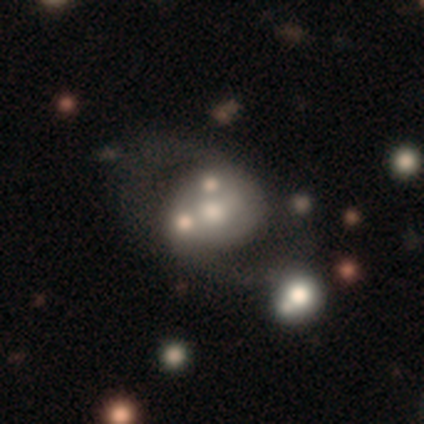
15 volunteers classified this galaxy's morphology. Smooth or featured: featured or disk — 80% (smooth — 13%)
Edge-on disk: no — 100%
Bar: no — 92% (weak — 8%)
Spiral arms: no — 58% (yes — 42%)
Bulge size: moderate — 58% (small — 25%)
Merging: none — 43% (merger — 29%)